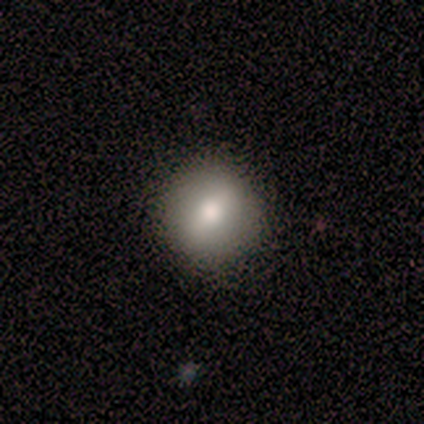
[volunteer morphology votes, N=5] Smooth or featured? smooth (60%)
How rounded? round (100%)
Merging? none (100%)